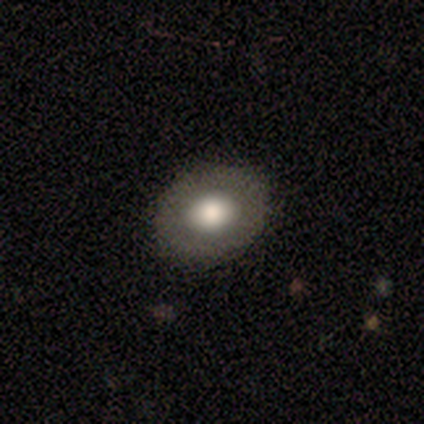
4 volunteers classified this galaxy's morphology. Smooth or featured?
  - smooth: 100% *
  - featured or disk: 0%
  - star or artifact: 0%
How rounded?
  - round: 75% *
  - in between: 25%
  - cigar-shaped: 0%
Merging?
  - none: 100% *
  - minor disturbance: 0%
  - major disturbance: 0%
  - merger: 0%